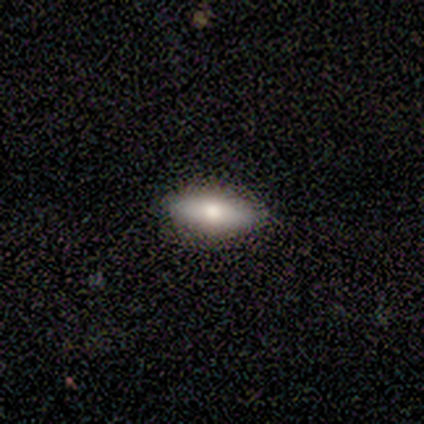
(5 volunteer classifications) Smooth or featured?
  - smooth: 100% *
  - featured or disk: 0%
  - star or artifact: 0%
How rounded?
  - in between: 40% * (tied)
  - cigar-shaped: 40% * (tied)
  - round: 20%
Merging?
  - none: 100% *
  - minor disturbance: 0%
  - major disturbance: 0%
  - merger: 0%